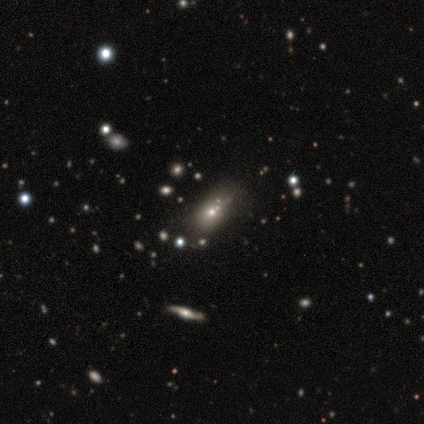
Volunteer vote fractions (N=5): Q: Smooth or featured?
A: smooth (60%); runner-up: featured or disk (20%)
Q: How rounded?
A: in between (100%)
Q: Merging?
A: none (50%); runner-up: minor disturbance (25%)